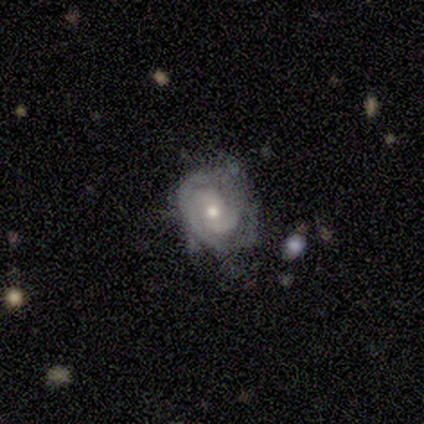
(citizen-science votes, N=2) Overall: featured or disk (100%). Edge-on disk: yes (50%, tied with no). Edge-on bulge: rounded (100%). Merging: none (50%, tied with major disturbance).